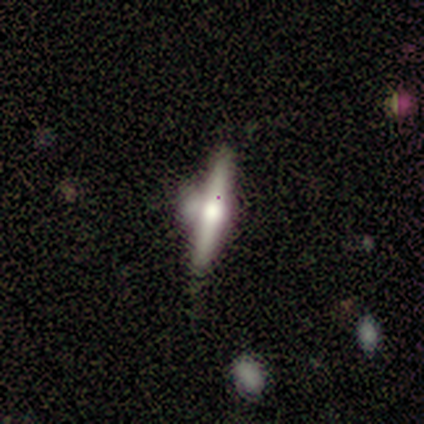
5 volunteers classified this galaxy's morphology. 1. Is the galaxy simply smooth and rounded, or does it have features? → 60% featured or disk, 40% smooth, 0% star or artifact.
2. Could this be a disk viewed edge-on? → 67% yes, 33% no.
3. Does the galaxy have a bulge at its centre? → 50% boxy (tied), 50% rounded (tied), 0% none.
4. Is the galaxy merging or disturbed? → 60% minor disturbance, 40% merger, 0% none, 0% major disturbance.